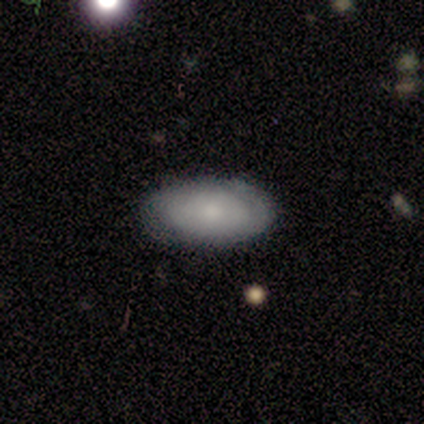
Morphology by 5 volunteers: A smooth galaxy with no disk features (100%) that is in between round and cigar-shaped (100%). Merging: none (80%).